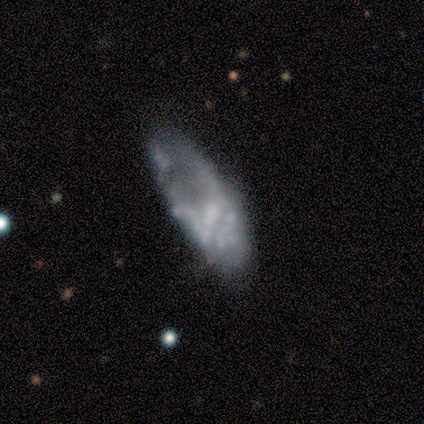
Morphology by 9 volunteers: Smooth or featured?
  - featured or disk: 56% *
  - smooth: 33%
  - star or artifact: 11%
Edge-on disk?
  - no: 100% *
  - yes: 0%
Bar?
  - no: 80% *
  - weak: 20%
  - strong: 0%
Spiral arms?
  - no: 80% *
  - yes: 20%
Bulge size?
  - none: 60% *
  - moderate: 40%
  - dominant: 0%
  - large: 0%
  - small: 0%
Merging?
  - minor disturbance: 38% * (tied)
  - major disturbance: 38% * (tied)
  - none: 25%
  - merger: 0%